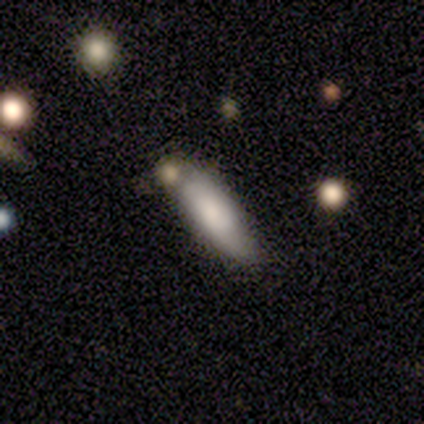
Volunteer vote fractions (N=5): Smooth or featured?
  - smooth: 80% *
  - star or artifact: 20%
  - featured or disk: 0%
How rounded?
  - in between: 75% *
  - cigar-shaped: 25%
  - round: 0%
Merging?
  - merger: 50% *
  - none: 25%
  - minor disturbance: 25%
  - major disturbance: 0%